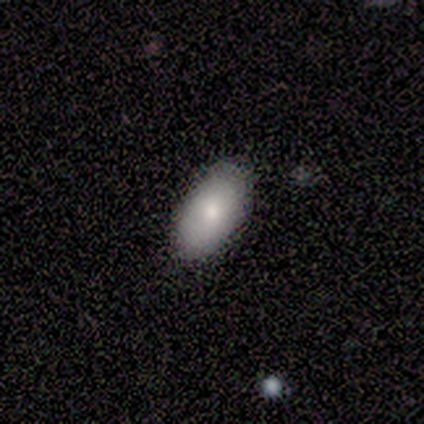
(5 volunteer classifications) Morphology: type=smooth (40%, tied with featured or disk); roundness=in between (100%); merging=none (75%).